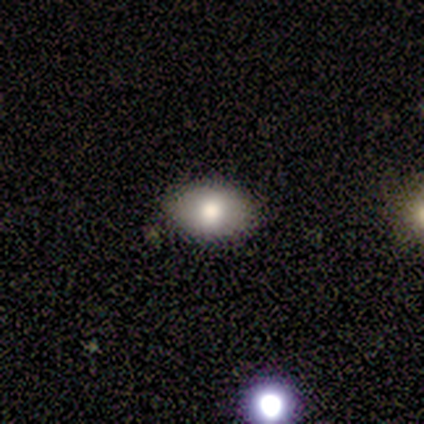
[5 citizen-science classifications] Smooth or featured? smooth (40%, tied with featured or disk)
How rounded? in between (100%)
Merging? none (75%)